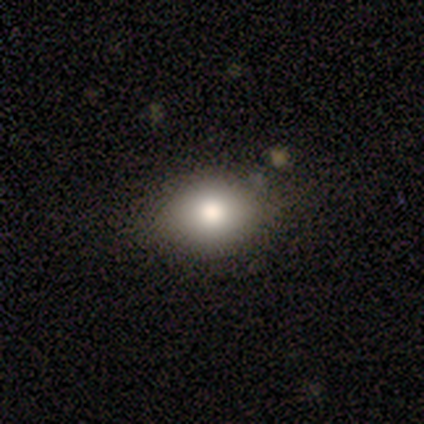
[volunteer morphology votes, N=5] Q: Smooth or featured?
A: smooth (80%); runner-up: featured or disk (20%)
Q: How rounded?
A: round (50%); runner-up: in between (25%)
Q: Merging?
A: none (60%); runner-up: minor disturbance (40%)